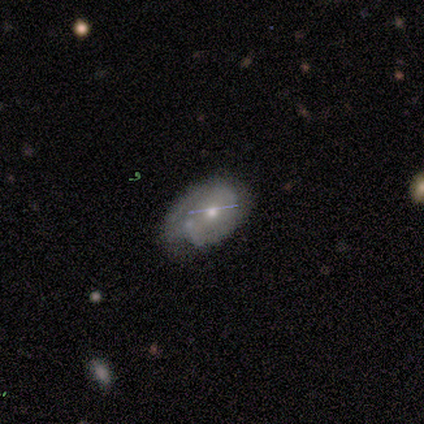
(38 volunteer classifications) This is likely a featured or disk galaxy (74%). It is likely not viewed edge-on (75%). Bar: possibly no (57%). Spiral arm pattern: clearly yes (86%). Spiral arm count: possibly 2 (50%). Spiral winding: marginally tight (44%, tied with medium). Central bulge: likely moderate (62%). Merging: possibly none (50%).